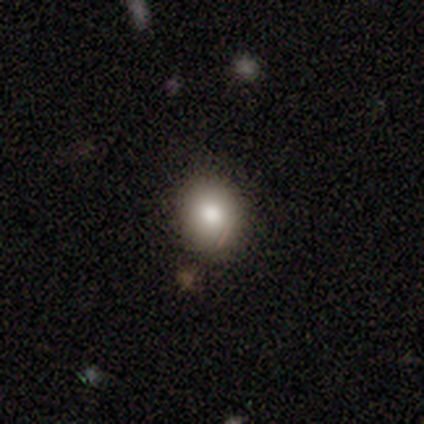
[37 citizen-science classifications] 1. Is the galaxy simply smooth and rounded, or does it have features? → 70% smooth, 19% star or artifact, 11% featured or disk.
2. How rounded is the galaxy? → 62% round, 38% in between, 0% cigar-shaped.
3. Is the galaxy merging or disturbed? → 73% none, 17% minor disturbance, 7% merger, 3% major disturbance.